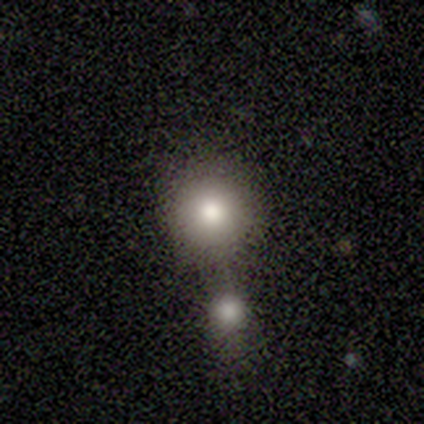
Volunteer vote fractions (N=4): Smooth or featured: smooth — 75% (star or artifact — 25%)
How rounded: round — 100%
Merging: none — 67% (merger — 33%)